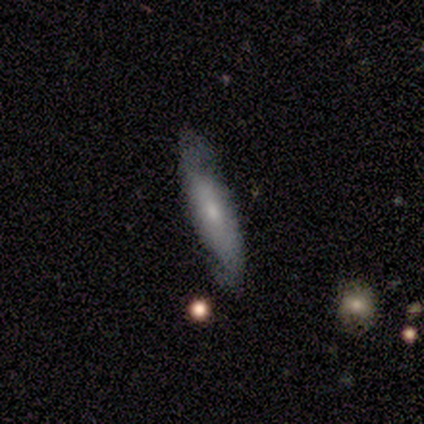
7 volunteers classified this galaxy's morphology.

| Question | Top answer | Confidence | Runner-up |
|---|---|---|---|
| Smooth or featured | featured or disk | 57% | star or artifact (29%) |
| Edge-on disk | no | 75% | yes (25%) |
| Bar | no | 100% | — |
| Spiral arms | yes | 100% | — |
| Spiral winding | loose | 67% | tight (33%) |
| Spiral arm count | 2 | 67% | can't tell (33%) |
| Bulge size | small | 67% | moderate (33%) |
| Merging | none | 60% | minor disturbance (20%) |